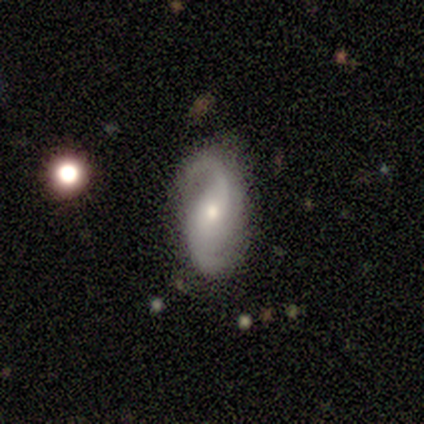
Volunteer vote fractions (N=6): Q: Smooth or featured?
A: featured or disk (100%)
Q: Edge-on disk?
A: no (100%)
Q: Bar?
A: weak (50%); tied with: no (50%)
Q: Spiral arms?
A: yes (100%)
Q: Spiral winding?
A: loose (50%); runner-up: medium (33%)
Q: Spiral arm count?
A: 2 (100%)
Q: Bulge size?
A: moderate (83%); runner-up: small (17%)
Q: Merging?
A: none (100%)